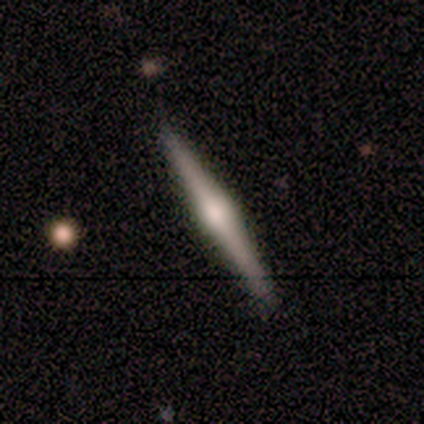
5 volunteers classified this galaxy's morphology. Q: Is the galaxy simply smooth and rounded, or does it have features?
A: featured or disk — 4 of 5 (80%).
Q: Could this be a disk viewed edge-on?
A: yes — 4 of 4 (100%).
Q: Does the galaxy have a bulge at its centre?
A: rounded — 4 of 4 (100%).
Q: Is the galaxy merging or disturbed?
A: none — 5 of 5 (100%).